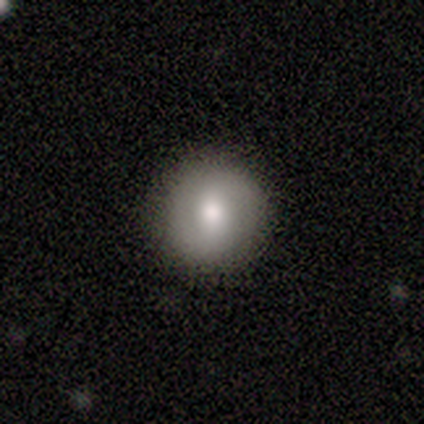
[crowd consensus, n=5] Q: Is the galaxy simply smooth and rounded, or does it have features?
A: smooth — 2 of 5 (40%, tied with featured or disk).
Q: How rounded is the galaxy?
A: round — 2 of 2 (100%).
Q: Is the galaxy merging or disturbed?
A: none — 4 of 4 (100%).